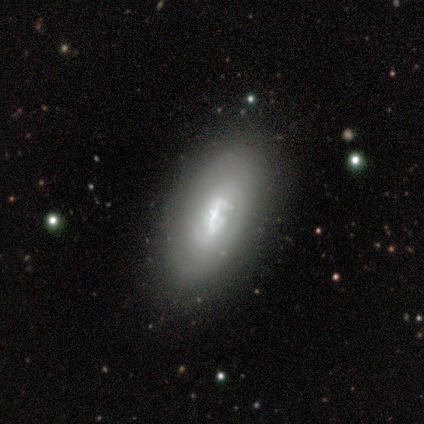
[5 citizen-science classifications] Smooth or featured? featured or disk (80%)
Edge-on disk? no (100%)
Bar? no (75%)
Spiral arms? no (75%)
Bulge size? large (25%, tied with moderate, small and none)
Merging? none (60%)